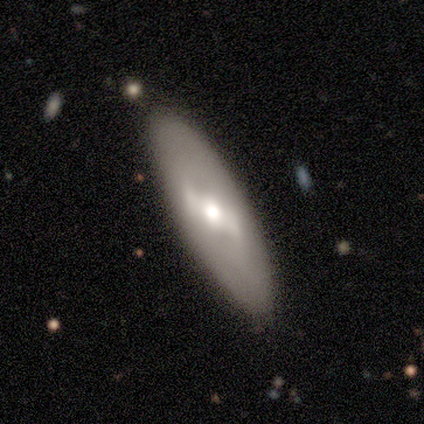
A featured or disk galaxy (64%) with a strong bar (57%), no spiral arms (86%) and a moderate central bulge (86%). Merging: none (100%).